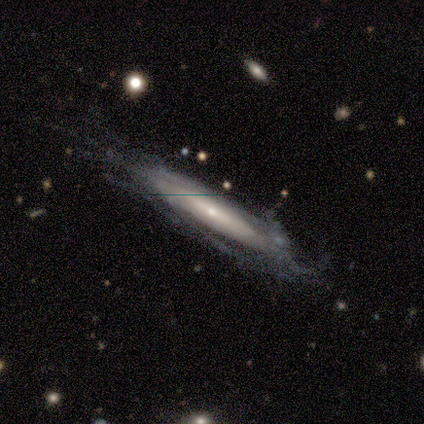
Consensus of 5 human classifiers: A featured or disk galaxy (80%) viewed edge-on (50%, tied with no) with no central bulge (50%, tied with rounded).

Vote fractions:
- Smooth or featured? featured or disk: 80% / star or artifact: 20% / smooth: 0%
- Edge-on disk? yes: 50% (tied) / no: 50% (tied)
- Edge-on bulge? none: 50% (tied) / rounded: 50% (tied) / boxy: 0%
- Merging? none: 100% / minor disturbance: 0% / major disturbance: 0% / merger: 0%